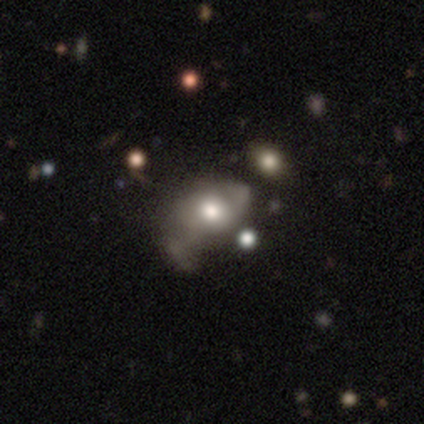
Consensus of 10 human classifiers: Morphology: type=smooth (60%); roundness=in between (83%); merging=none (50%).